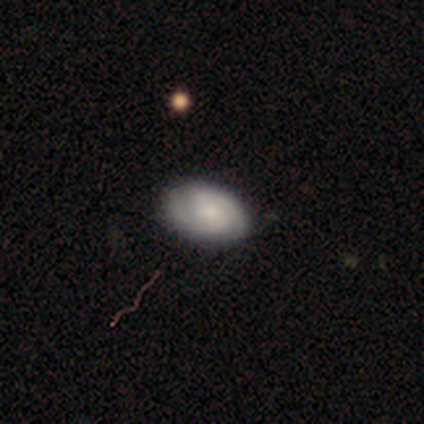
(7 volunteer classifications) A smooth galaxy with no disk features (43%, tied with featured or disk) that is in between round and cigar-shaped (100%). Merging: none (83%).